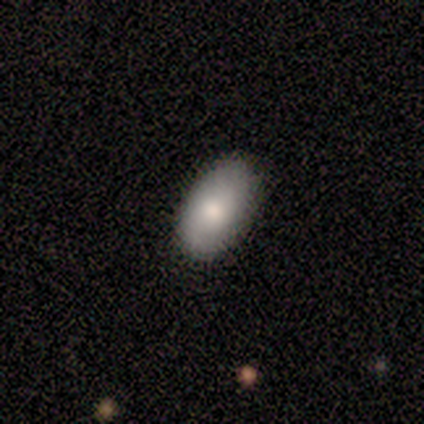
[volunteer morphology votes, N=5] Smooth or featured?
  - smooth: 80% *
  - star or artifact: 20%
  - featured or disk: 0%
How rounded?
  - in between: 100% *
  - round: 0%
  - cigar-shaped: 0%
Merging?
  - none: 100% *
  - minor disturbance: 0%
  - major disturbance: 0%
  - merger: 0%